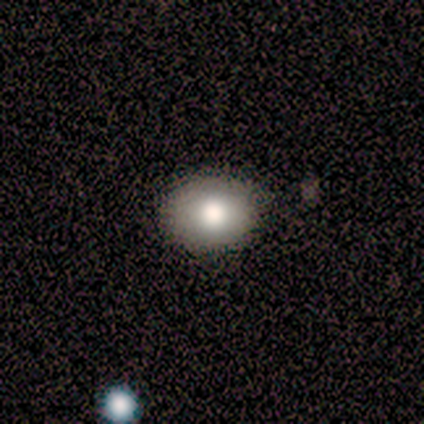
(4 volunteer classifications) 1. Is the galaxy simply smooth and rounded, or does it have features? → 75% smooth, 25% star or artifact, 0% featured or disk.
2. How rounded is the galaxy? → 100% round, 0% in between, 0% cigar-shaped.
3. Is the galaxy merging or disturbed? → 67% none, 33% minor disturbance, 0% major disturbance, 0% merger.